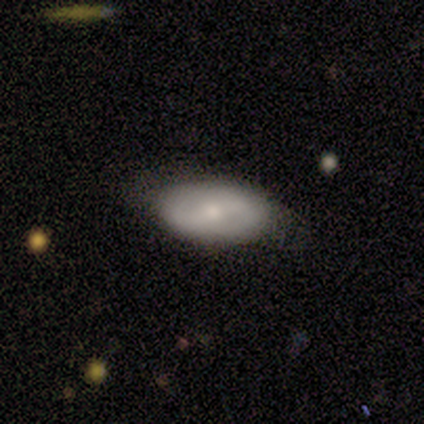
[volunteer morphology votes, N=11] Q: Smooth or featured?
A: featured or disk (73%); runner-up: smooth (27%)
Q: Edge-on disk?
A: no (100%)
Q: Bar?
A: strong (38%); tied with: no (38%)
Q: Spiral arms?
A: no (62%); runner-up: yes (38%)
Q: Bulge size?
A: small (62%); runner-up: large (25%)
Q: Merging?
A: none (91%); runner-up: minor disturbance (9%)